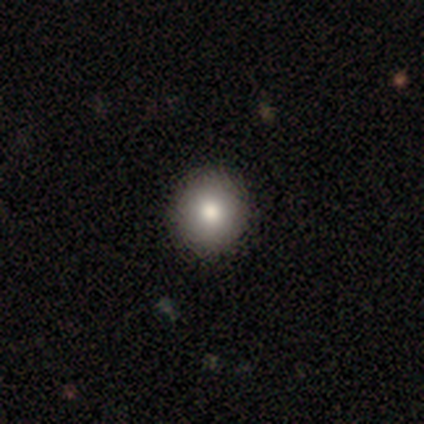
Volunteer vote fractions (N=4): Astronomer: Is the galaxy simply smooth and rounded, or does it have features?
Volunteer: smooth — 75%.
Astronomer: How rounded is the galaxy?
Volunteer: round — 100%.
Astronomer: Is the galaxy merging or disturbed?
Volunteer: none — 100%.